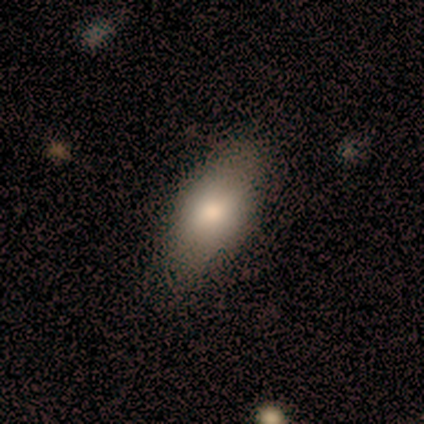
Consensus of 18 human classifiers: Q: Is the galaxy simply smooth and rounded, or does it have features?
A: smooth — 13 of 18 (72%).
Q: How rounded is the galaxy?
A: in between — 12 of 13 (92%).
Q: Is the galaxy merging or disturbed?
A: none — 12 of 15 (80%).